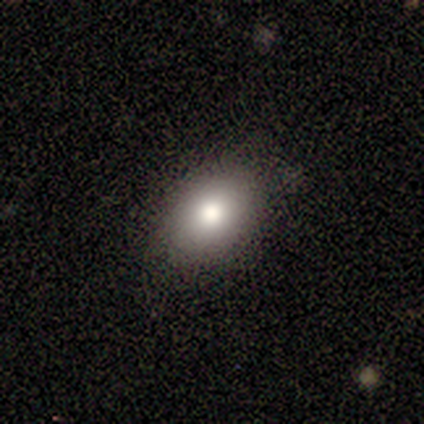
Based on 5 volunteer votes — smooth 80%, featured or disk 20%, star or artifact 0%. Down the decision tree: how rounded — in between (75%); merging — none (100%).